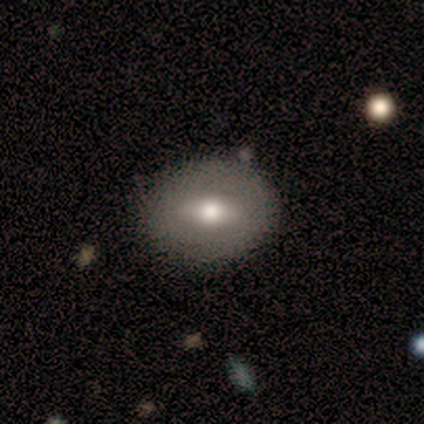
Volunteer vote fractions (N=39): This appears to be a smooth galaxy with no disk features (56%) that is in between round and cigar-shaped (64%). Merging: none (89%).